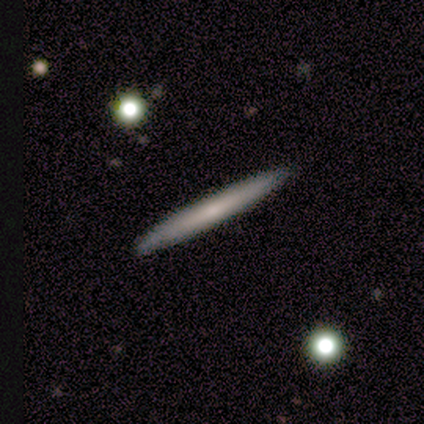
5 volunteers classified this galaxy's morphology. smooth_or_featured: smooth (p=0.60) [alt: featured or disk p=0.40]
how_rounded: cigar-shaped (p=1.00)
merging: none (p=1.00)